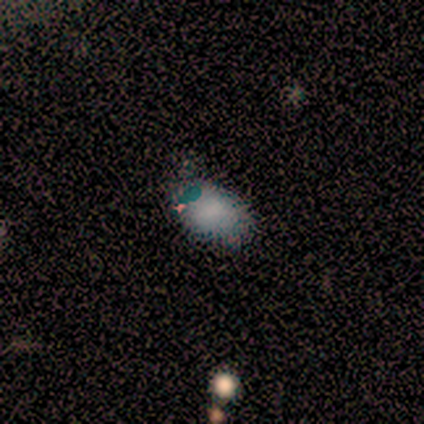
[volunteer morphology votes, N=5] Smooth or featured? smooth (100%)
How rounded? in between (100%)
Merging? none (100%)